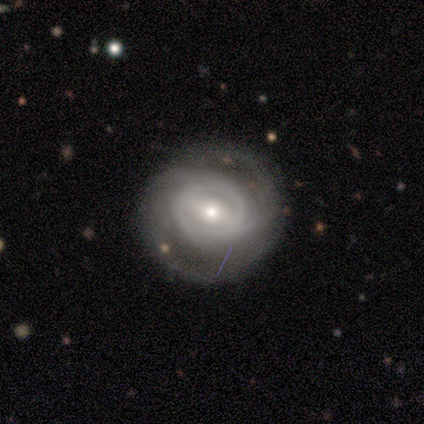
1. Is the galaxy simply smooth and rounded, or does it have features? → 92% featured or disk, 8% smooth, 0% star or artifact.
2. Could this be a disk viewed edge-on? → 100% no, 0% yes.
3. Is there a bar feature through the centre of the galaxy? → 46% strong, 43% weak, 11% no.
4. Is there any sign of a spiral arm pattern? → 91% yes, 9% no.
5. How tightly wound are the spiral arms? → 47% medium, 44% tight, 9% loose.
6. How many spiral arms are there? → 41% 3, 25% 2, 25% can't tell, 6% 4, 3% more than 4, 0% 1.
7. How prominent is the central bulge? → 63% small, 37% moderate, 0% dominant, 0% large, 0% none.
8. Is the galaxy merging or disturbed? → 82% none, 11% minor disturbance, 8% major disturbance, 0% merger.